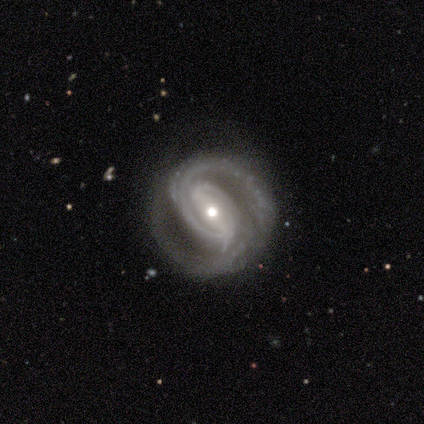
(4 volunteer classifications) Smooth or featured? 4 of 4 (100%) said featured or disk. Edge-on disk? 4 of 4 (100%) said no. Bar? 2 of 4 (50%) said weak. Spiral arms? 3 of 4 (75%) said yes. Spiral winding? 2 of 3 (67%) said tight. Spiral arm count? 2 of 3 (67%) said 2. Bulge size? 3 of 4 (75%) said small. Merging? 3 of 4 (75%) said none.